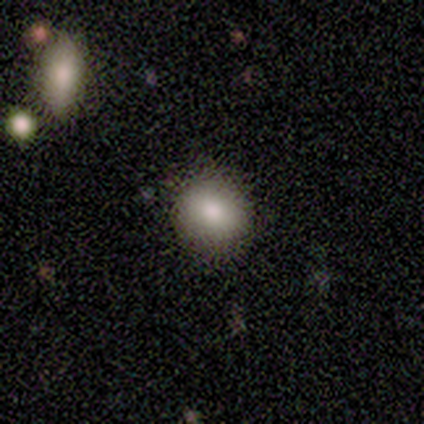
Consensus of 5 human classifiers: A smooth galaxy with no disk features (100%) that is round (60%). Merging: none (100%).